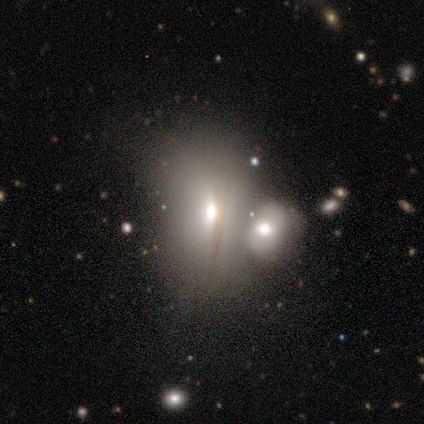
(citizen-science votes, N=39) Smooth or featured? 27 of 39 (69%) said smooth. How rounded? 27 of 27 (100%) said in between. Merging? 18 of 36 (50%) said merger.